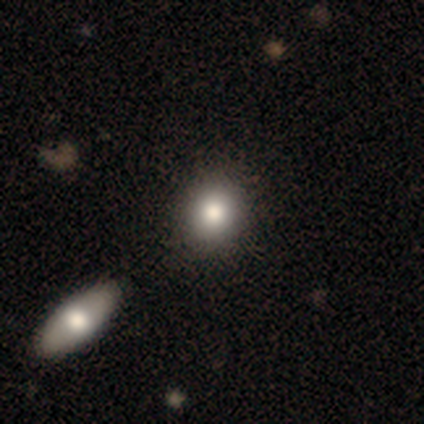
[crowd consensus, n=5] Q: Smooth or featured?
A: smooth (80%); runner-up: star or artifact (20%)
Q: How rounded?
A: round (50%); tied with: in between (50%)
Q: Merging?
A: none (50%); runner-up: minor disturbance (25%)